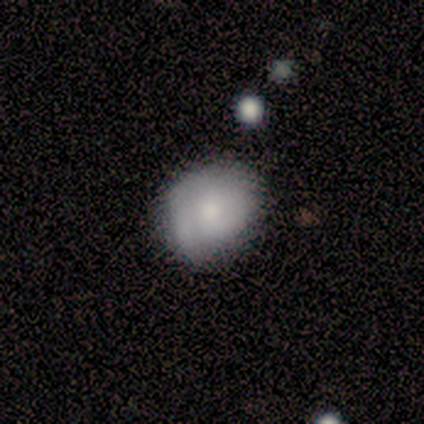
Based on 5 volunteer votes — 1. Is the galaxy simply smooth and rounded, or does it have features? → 100% smooth, 0% featured or disk, 0% star or artifact.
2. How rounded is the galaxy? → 60% round, 40% in between, 0% cigar-shaped.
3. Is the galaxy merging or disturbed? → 100% none, 0% minor disturbance, 0% major disturbance, 0% merger.